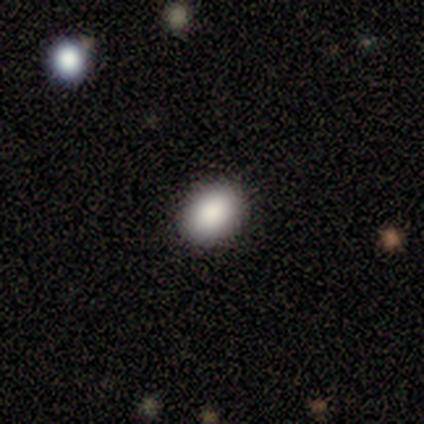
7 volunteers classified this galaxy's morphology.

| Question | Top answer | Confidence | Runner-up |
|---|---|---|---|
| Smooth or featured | smooth | 86% | star or artifact (14%) |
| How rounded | in between | 67% | round (33%) |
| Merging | none | 100% | — |